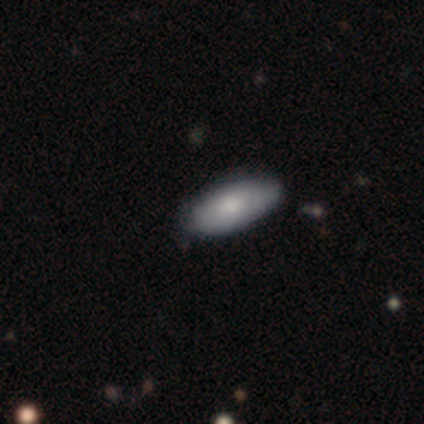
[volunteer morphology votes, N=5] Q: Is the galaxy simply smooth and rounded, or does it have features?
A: smooth — 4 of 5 (80%).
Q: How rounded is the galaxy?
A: in between — 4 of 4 (100%).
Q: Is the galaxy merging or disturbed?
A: none — 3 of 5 (60%).